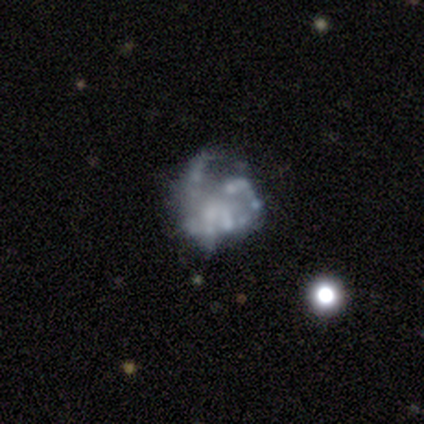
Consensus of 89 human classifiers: This appears to be a featured or disk galaxy (71%) with no bar (92%), no spiral arms (69%) and no central bulge (66%). Merging: major disturbance (38%).